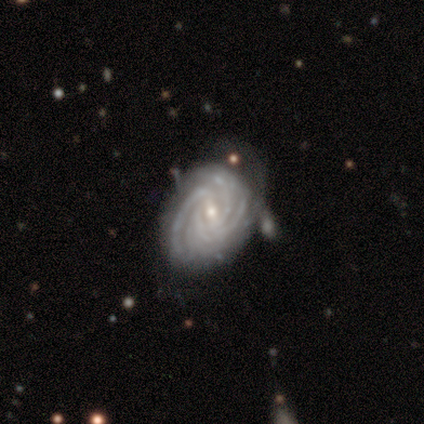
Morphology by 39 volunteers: Volunteers were most divided on "bar": weak: 45%, no: 29%, strong: 26%. Remaining: smooth or featured — featured or disk (100%); spiral arms — yes (100%); edge-on disk — no (97%); spiral winding — tight (76%); bulge size — small (63%); merging — none (62%); spiral arm count — 4 (42%).